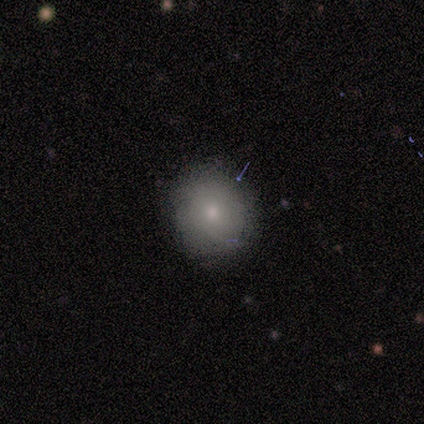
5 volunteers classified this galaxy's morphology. smooth-or-featured: smooth: 80% | featured or disk: 20% | star or artifact: 0%
  how-rounded: round: 100% | in between: 0% | cigar-shaped: 0%
  merging: none: 100% | minor disturbance: 0% | major disturbance: 0% | merger: 0%